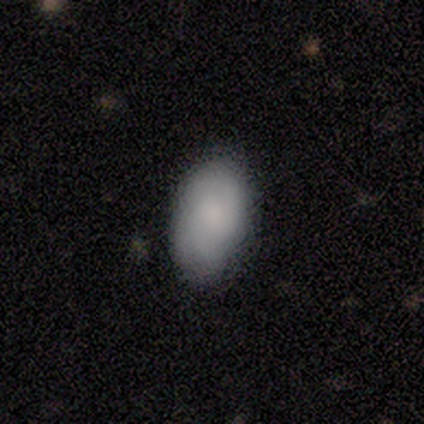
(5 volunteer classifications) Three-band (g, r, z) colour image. It shows a smooth galaxy with no disk features (80%) that is in between round and cigar-shaped (100%). Merging: none (100%).